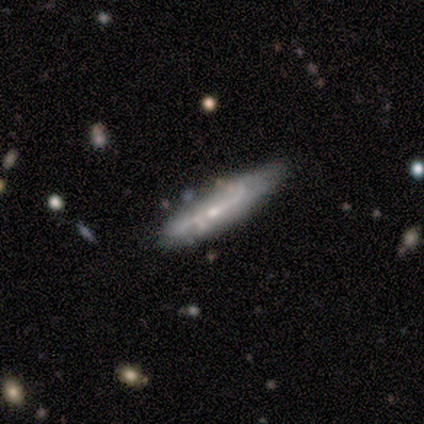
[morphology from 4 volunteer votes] Volunteers were most divided on "smooth or featured" (2-way tie): smooth: 50%, featured or disk: 50%, star or artifact: 0%. More confident: how rounded — cigar-shaped (100%); merging — none (50%).